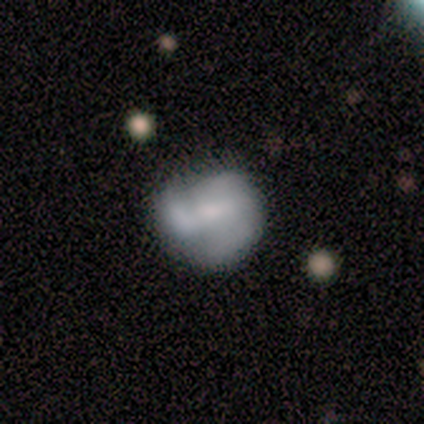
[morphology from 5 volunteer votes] Smooth or featured?
  - featured or disk: 60% *
  - smooth: 40%
  - star or artifact: 0%
Edge-on disk?
  - no: 100% *
  - yes: 0%
Bar?
  - weak: 100% *
  - strong: 0%
  - no: 0%
Spiral arms?
  - yes: 100% *
  - no: 0%
Spiral winding?
  - tight: 67% *
  - medium: 33%
  - loose: 0%
Spiral arm count?
  - 3: 67% *
  - 2: 33%
  - 1: 0%
  - 4: 0%
  - more than 4: 0%
  - can't tell: 0%
Bulge size?
  - dominant: 33% * (tied)
  - small: 33% * (tied)
  - none: 33% * (tied)
  - large: 0%
  - moderate: 0%
Merging?
  - none: 60% *
  - minor disturbance: 40%
  - major disturbance: 0%
  - merger: 0%